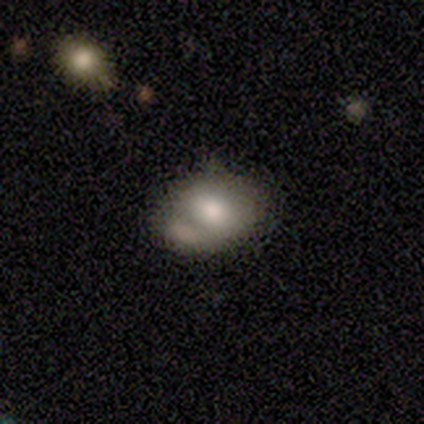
Q: Smooth or featured?
A: smooth (69%); runner-up: featured or disk (25%)
Q: How rounded?
A: in between (82%); runner-up: round (18%)
Q: Merging?
A: minor disturbance (47%); runner-up: merger (27%)